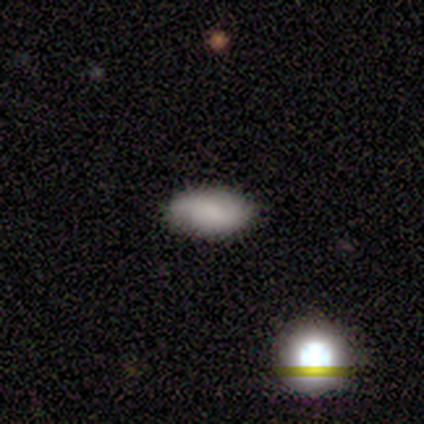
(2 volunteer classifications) smooth-or-featured: featured or disk: 100% | smooth: 0% | star or artifact: 0%
  disk-edge-on: yes: 50% (tied) | no: 50% (tied)
    edge-on-bulge: rounded: 100% | boxy: 0% | none: 0%
  merging: none: 50% (tied) | minor disturbance: 50% (tied) | major disturbance: 0% | merger: 0%